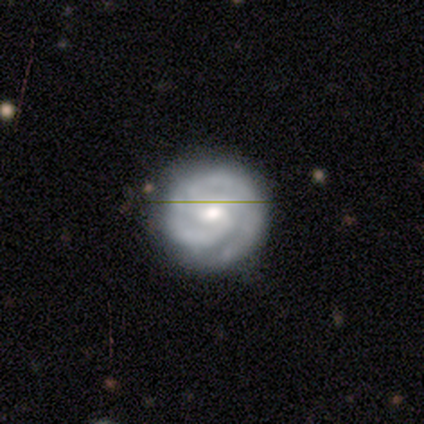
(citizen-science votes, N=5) Smooth or featured: featured or disk — 80% (smooth — 20%)
Edge-on disk: no — 100%
Bar: weak — 50% (tied with no — 50%)
Spiral arms: yes — 100%
Spiral winding: tight — 75% (medium — 25%)
Spiral arm count: 2 — 50% (tied with 3 — 50%)
Bulge size: small — 75% (moderate — 25%)
Merging: none — 80% (minor disturbance — 20%)